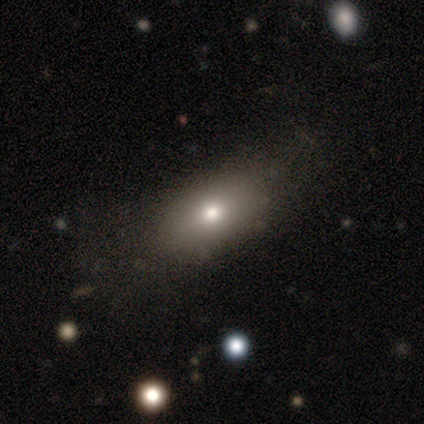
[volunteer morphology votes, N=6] smooth-or-featured: smooth: 50% | featured or disk: 33% | star or artifact: 17%
  how-rounded: in between: 100% | round: 0% | cigar-shaped: 0%
  merging: none: 100% | minor disturbance: 0% | major disturbance: 0% | merger: 0%